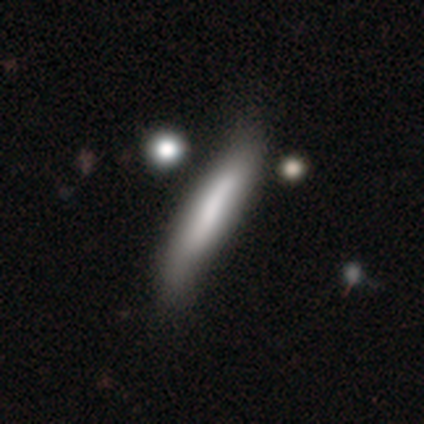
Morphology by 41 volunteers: Overall: smooth (66%; featured or disk 34%). How rounded: cigar-shaped (85%). Merging: none (34%; minor disturbance 15%).